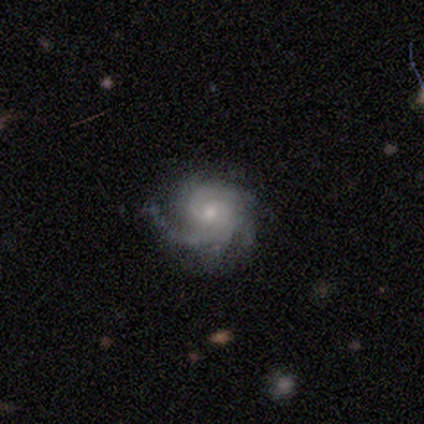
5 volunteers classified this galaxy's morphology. Smooth or featured: featured or disk — 100%
Edge-on disk: no — 100%
Bar: no — 80% (weak — 20%)
Spiral arms: yes — 100%
Spiral winding: tight — 60% (medium — 40%)
Spiral arm count: 4 — 40% (2 — 20%)
Bulge size: small — 80% (moderate — 20%)
Merging: none — 80% (minor disturbance — 20%)